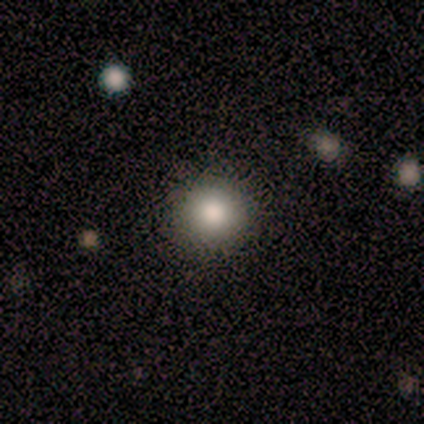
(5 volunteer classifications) A smooth galaxy with no disk features (80%) that is round (100%).

Vote fractions:
- Smooth or featured? smooth: 80% / star or artifact: 20% / featured or disk: 0%
- How rounded? round: 100% / in between: 0% / cigar-shaped: 0%
- Merging? none: 100% / minor disturbance: 0% / major disturbance: 0% / merger: 0%